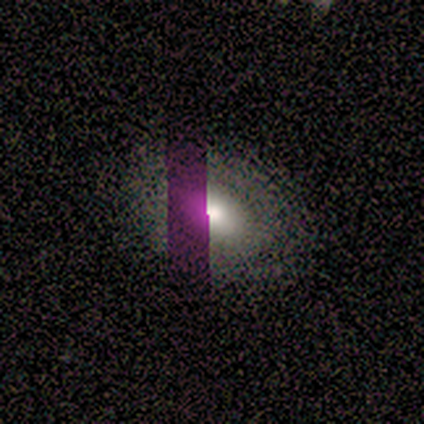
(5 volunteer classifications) smooth 80%, star or artifact 20%, featured or disk 0%. Down the decision tree: how rounded — in between (75%); merging — none (100%).